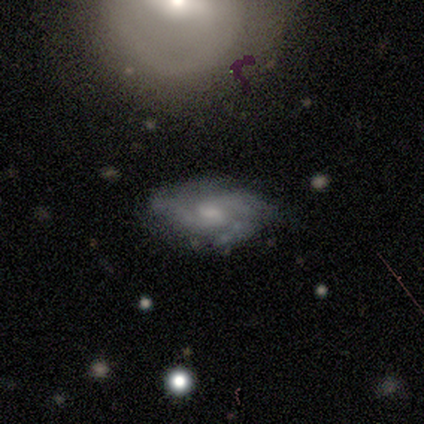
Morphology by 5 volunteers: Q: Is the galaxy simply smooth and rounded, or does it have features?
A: featured or disk — 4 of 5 (80%).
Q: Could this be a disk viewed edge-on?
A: no — 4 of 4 (100%).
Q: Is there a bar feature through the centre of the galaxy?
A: no — 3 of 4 (75%).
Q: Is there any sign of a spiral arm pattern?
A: yes — 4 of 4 (100%).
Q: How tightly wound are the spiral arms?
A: tight — 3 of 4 (75%).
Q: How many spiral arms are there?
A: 2 — 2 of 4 (50%).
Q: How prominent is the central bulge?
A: small — 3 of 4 (75%).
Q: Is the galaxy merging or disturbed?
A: none — 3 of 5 (60%).